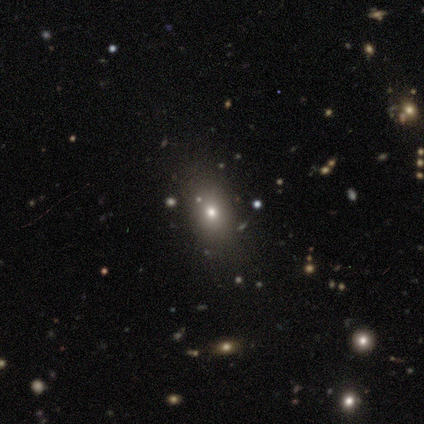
Volunteers were most divided on "smooth or featured": star or artifact: 50%, smooth: 25%, featured or disk: 25%.